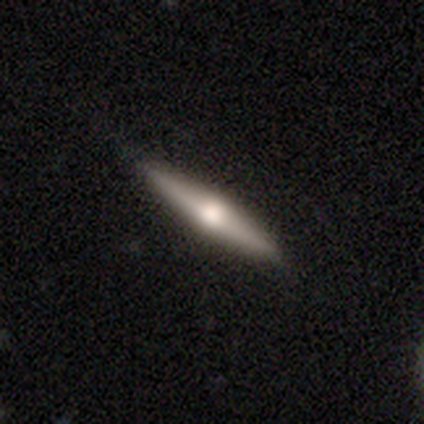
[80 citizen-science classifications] Q: Smooth or featured?
A: featured or disk (64%); runner-up: smooth (32%)
Q: Edge-on disk?
A: yes (98%); runner-up: no (2%)
Q: Edge-on bulge?
A: rounded (94%); runner-up: none (6%)
Q: Merging?
A: none (45%); runner-up: minor disturbance (5%)